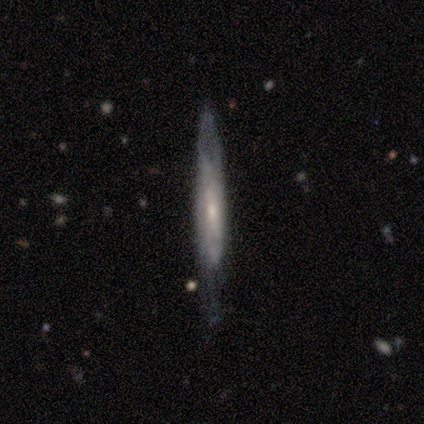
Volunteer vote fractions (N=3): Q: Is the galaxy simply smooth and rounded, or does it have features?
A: smooth — 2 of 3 (67%).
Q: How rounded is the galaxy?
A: cigar-shaped — 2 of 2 (100%).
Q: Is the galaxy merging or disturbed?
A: none — 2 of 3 (67%).